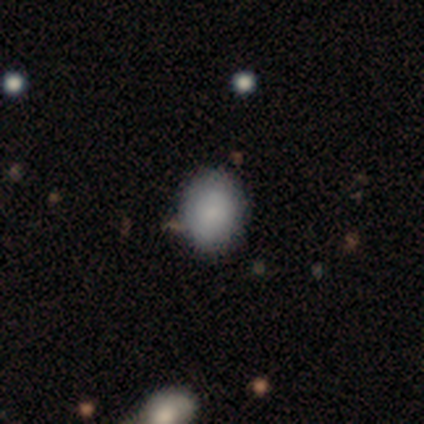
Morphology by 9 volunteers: smooth_or_featured: smooth (p=0.78) [alt: featured or disk p=0.22]
how_rounded: in between (p=0.86) [alt: round p=0.14]
merging: none (p=0.89) [alt: minor disturbance p=0.11]